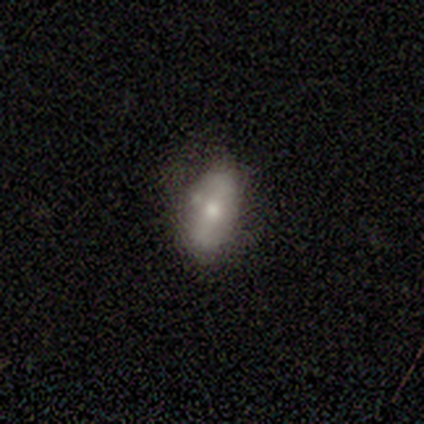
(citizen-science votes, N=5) A smooth galaxy with no disk features (80%) that is in between round and cigar-shaped (75%). Merging: none (80%).